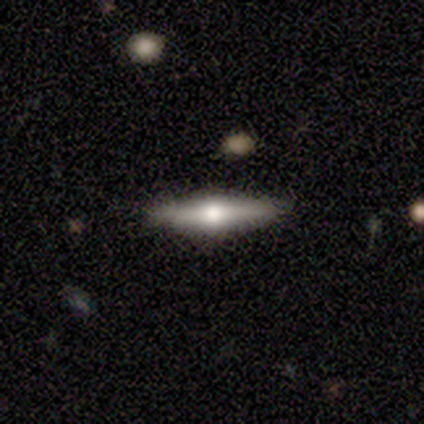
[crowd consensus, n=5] A featured or disk galaxy (60%) viewed edge-on (100%) with a rounded central bulge (100%). Merging: none (80%).